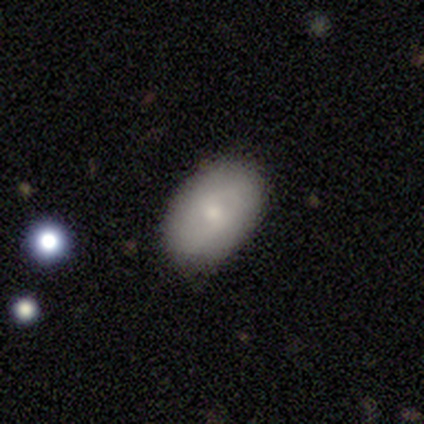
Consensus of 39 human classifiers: Q: Smooth or featured?
A: smooth (62%); runner-up: featured or disk (38%)
Q: How rounded?
A: in between (92%); runner-up: round (4%)
Q: Merging?
A: none (77%); runner-up: minor disturbance (21%)